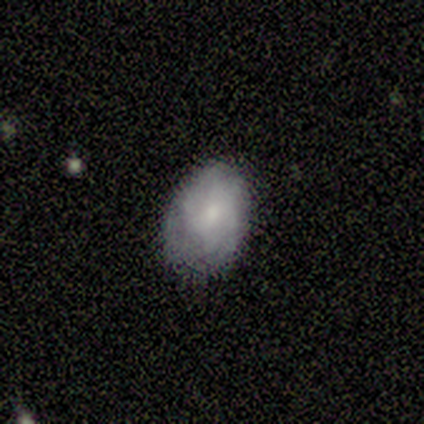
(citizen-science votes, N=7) This appears to be a featured or disk galaxy (57%) with a weak bar (50%, tied with no), 2 (33%, tied with 3 and can't tell) tight (67%) spiral arms (75%) and a small central bulge (50%). Merging: none (83%).